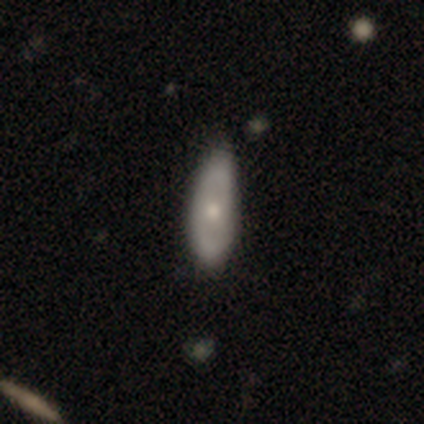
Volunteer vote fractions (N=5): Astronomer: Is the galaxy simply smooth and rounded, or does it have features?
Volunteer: featured or disk — 60%.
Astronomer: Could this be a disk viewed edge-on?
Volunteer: no — 100%.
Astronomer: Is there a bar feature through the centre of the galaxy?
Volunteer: no — 100%.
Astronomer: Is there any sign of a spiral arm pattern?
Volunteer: no — 67%.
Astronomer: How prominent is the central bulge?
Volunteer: moderate — 67%.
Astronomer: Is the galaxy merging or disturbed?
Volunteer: none — 75%.